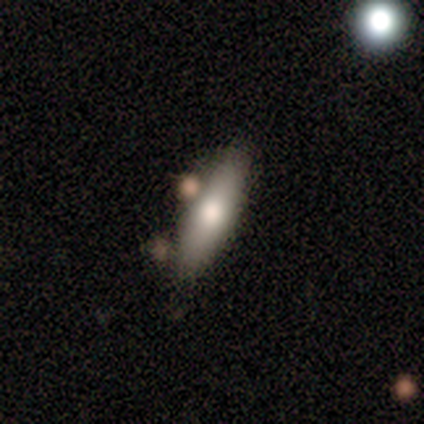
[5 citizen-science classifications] Morphology: type=smooth (80%); roundness=in between (75%); merging=none (80%).